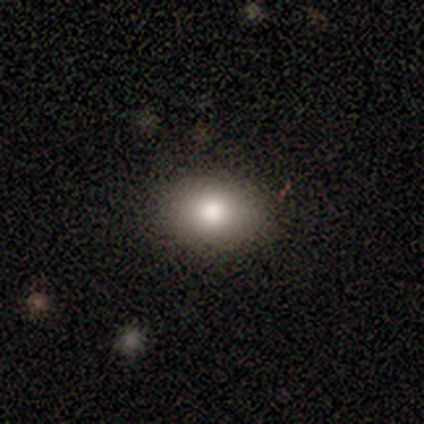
This appears to be a smooth galaxy with no disk features (100%) that is in between round and cigar-shaped (60%). Merging: none (100%).